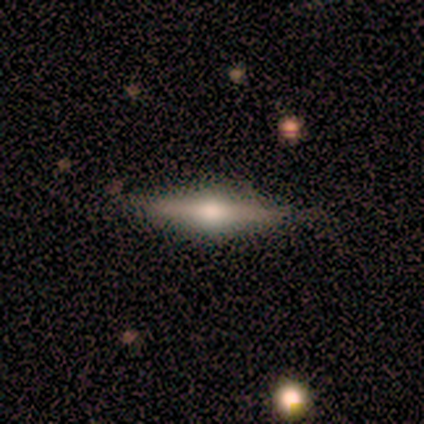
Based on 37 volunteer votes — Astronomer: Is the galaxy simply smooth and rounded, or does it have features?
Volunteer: featured or disk — 73%.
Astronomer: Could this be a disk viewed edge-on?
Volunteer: yes — 96%.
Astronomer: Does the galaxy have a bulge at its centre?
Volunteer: rounded — 96%.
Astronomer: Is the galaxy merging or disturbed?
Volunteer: none — 89%.